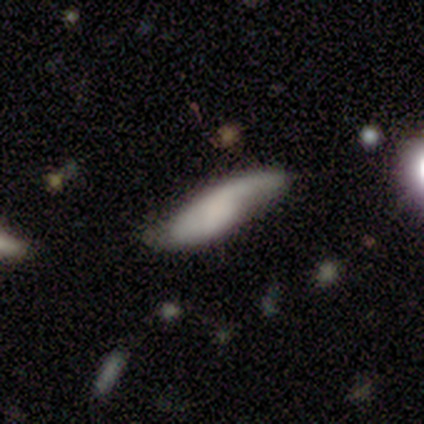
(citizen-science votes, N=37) A featured or disk galaxy (49%) with no bar (80%), 1 (80%) loose (70%) spiral arms (67%) and no central bulge (87%). Merging: none (49%).